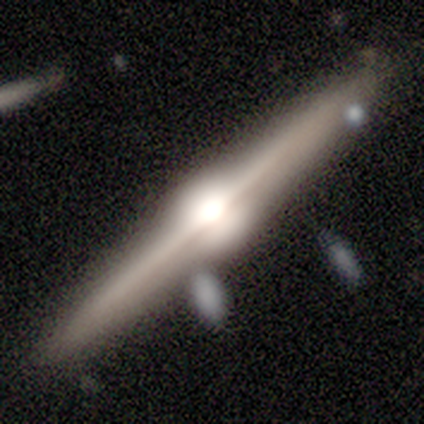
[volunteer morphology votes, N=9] Volunteers were most divided on "smooth or featured": featured or disk: 89%, smooth: 11%, star or artifact: 0%. More confident: edge-on disk — yes (100%); edge-on bulge — rounded (100%); merging — none (89%).